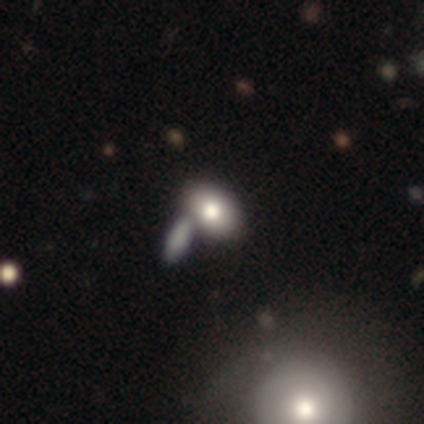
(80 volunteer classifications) This appears to be a smooth galaxy with no disk features (72%) that is in between round and cigar-shaped (90%). Merging: merger (58%).